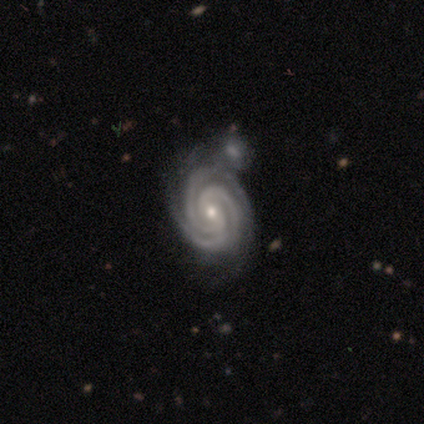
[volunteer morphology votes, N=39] Smooth or featured? featured or disk (97%)
Edge-on disk? no (100%)
Bar? no (53%)
Spiral arms? yes (97%)
Spiral winding? tight (95%)
Spiral arm count? 3 (59%)
Bulge size? small (76%)
Merging? none (46%)